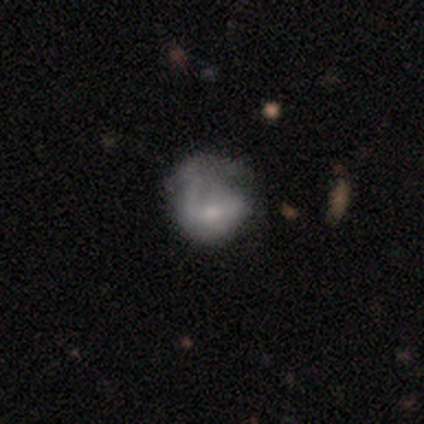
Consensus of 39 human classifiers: A smooth galaxy with no disk features (51%) that is in between round and cigar-shaped (60%).

Vote fractions:
- Smooth or featured? smooth: 51% / featured or disk: 44% / star or artifact: 5%
- How rounded? in between: 60% / round: 40% / cigar-shaped: 0%
- Merging? major disturbance: 46% / minor disturbance: 30% / none: 22% / merger: 3%